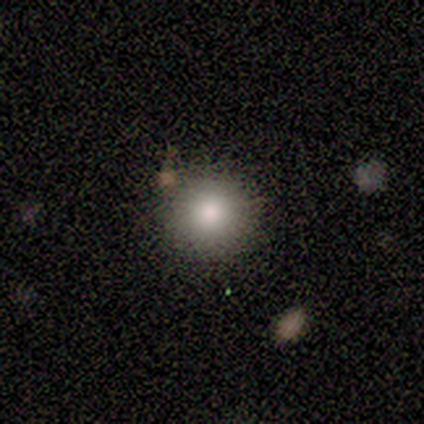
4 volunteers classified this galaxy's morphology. Volunteers were most divided on "merging": none: 75%, merger: 25%, minor disturbance: 0%, major disturbance: 0%. More confident: smooth or featured — smooth (100%); how rounded — round (100%).